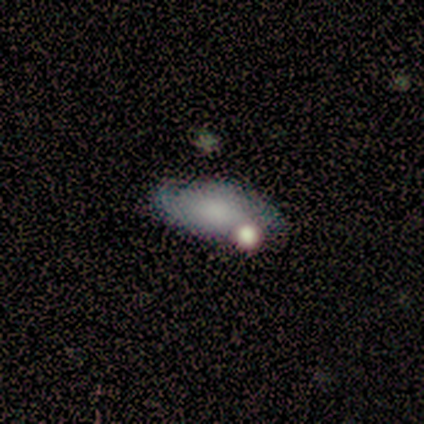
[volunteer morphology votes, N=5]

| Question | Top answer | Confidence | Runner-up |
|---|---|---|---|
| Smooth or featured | smooth | 80% | featured or disk (20%) |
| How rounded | in between | 100% | — |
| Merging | none | 60% | major disturbance (20%) |